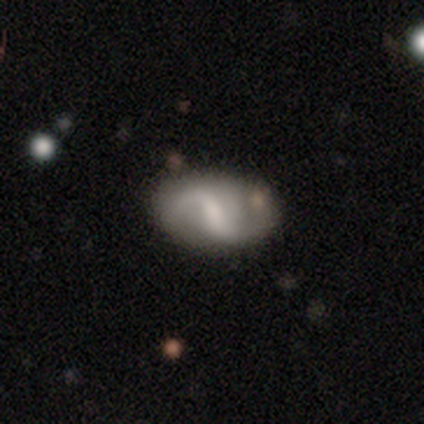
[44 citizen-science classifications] smooth_or_featured: featured or disk (p=0.70) [alt: smooth p=0.27]
disk_edge_on: no (p=0.97) [alt: yes p=0.03]
bar: weak (p=0.47) [alt: strong p=0.30]
has_spiral_arms: yes (p=0.83) [alt: no p=0.17]
spiral_winding: loose (p=0.60) [alt: medium p=0.36]
spiral_arm_count: 2 (p=0.80) [alt: 1 p=0.12]
bulge_size: small (p=0.37) [alt: moderate p=0.33]
merging: none (p=0.84) [alt: merger p=0.07]